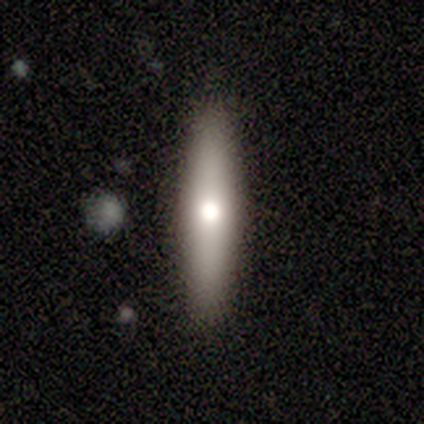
Overall: smooth (75%). How rounded: cigar-shaped (100%). Merging: none (100%).